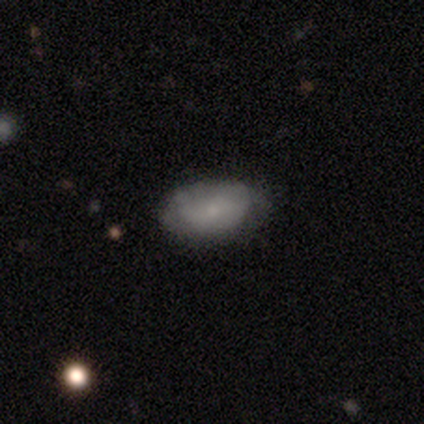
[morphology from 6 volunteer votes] Q: Smooth or featured?
A: smooth (50%); tied with: featured or disk (50%)
Q: How rounded?
A: in between (100%)
Q: Merging?
A: none (50%); tied with: minor disturbance (50%)